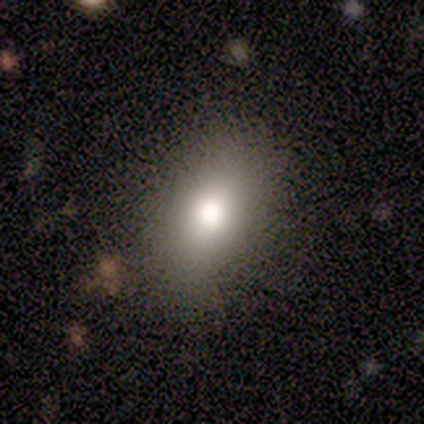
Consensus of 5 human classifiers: Smooth or featured: smooth — 60% (featured or disk — 20%)
How rounded: in between — 100%
Merging: none — 100%